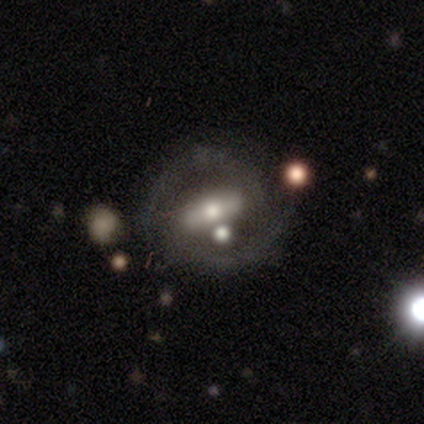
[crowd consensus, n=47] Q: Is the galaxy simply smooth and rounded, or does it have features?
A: featured or disk — 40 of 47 (85%).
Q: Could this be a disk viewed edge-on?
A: no — 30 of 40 (75%).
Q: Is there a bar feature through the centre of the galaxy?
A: strong — 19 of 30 (63%).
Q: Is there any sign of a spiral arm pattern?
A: yes — 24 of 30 (80%).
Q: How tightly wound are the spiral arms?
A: medium — 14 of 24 (58%).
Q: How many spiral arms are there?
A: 2 — 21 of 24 (88%).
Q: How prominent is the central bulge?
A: moderate — 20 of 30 (67%).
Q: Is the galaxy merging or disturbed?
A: none — 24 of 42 (57%).